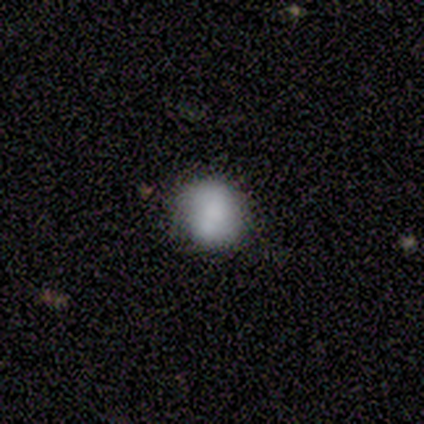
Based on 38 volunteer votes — smooth 74%, featured or disk 24%, star or artifact 3%. Down the decision tree: how rounded — round (71%); merging — none (62%).